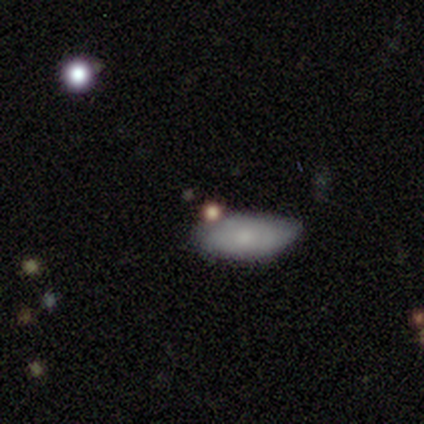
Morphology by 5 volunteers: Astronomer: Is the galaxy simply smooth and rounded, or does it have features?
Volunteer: smooth — 100%.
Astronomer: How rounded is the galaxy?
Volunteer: in between — 100%.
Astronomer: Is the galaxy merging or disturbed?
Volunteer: none — 60% (runner-up: minor disturbance, 40%).